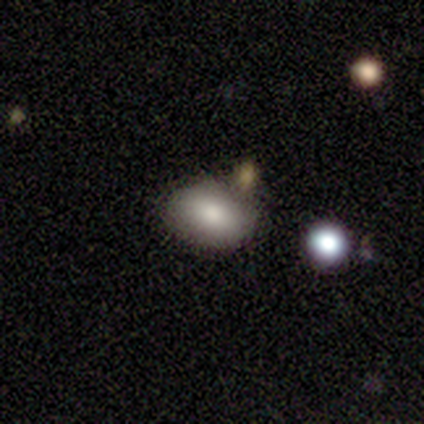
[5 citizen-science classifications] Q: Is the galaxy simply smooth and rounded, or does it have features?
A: smooth — 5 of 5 (100%).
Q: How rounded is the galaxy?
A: in between — 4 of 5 (80%).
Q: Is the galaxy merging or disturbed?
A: none — 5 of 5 (100%).